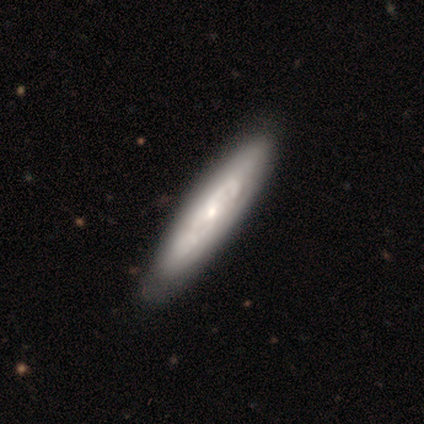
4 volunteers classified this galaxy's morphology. type=featured or disk (75%); edge-on=no (67%); bar=no (100%); spiral arms=yes (50%, tied with no); winding=tight (100%); arm count=can't tell (100%); bulge=moderate (50%, tied with none); merging=none (75%).